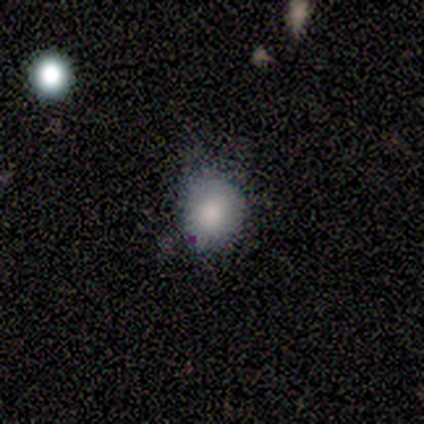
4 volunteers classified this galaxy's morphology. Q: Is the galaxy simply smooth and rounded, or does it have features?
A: smooth — 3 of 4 (75%).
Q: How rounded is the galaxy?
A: round — 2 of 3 (67%).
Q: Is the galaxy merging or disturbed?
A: none — 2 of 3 (67%).